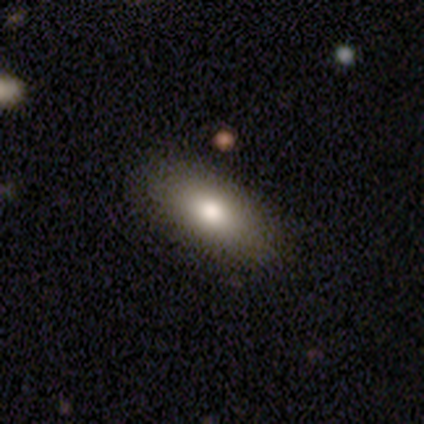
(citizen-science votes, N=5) Morphology: type=smooth (100%); roundness=in between (100%); merging=none (80%).